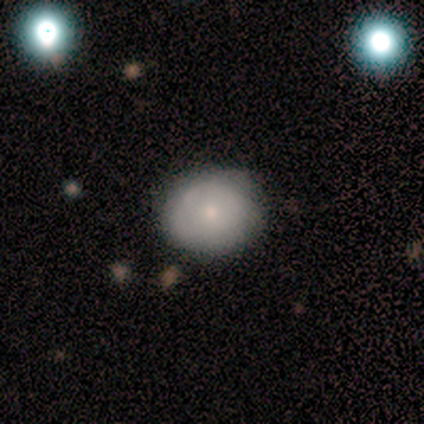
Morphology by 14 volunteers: smooth-or-featured: smooth: 64% | featured or disk: 29% | star or artifact: 7%
  how-rounded: round: 67% | in between: 33% | cigar-shaped: 0%
  merging: none: 77% | minor disturbance: 23% | major disturbance: 0% | merger: 0%